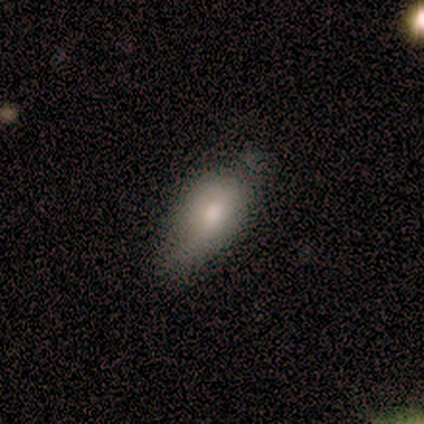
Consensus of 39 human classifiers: Smooth or featured?
  - smooth: 67% *
  - featured or disk: 18%
  - star or artifact: 15%
How rounded?
  - in between: 85% *
  - round: 8%
  - cigar-shaped: 8%
Merging?
  - none: 55% *
  - minor disturbance: 42%
  - major disturbance: 3%
  - merger: 0%